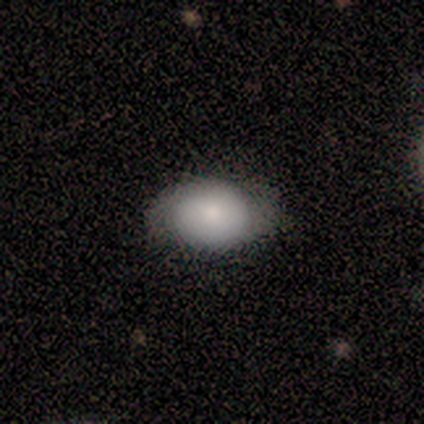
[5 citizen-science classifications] A smooth galaxy with no disk features (100%) that is in between round and cigar-shaped (80%). Merging: minor disturbance (60%).